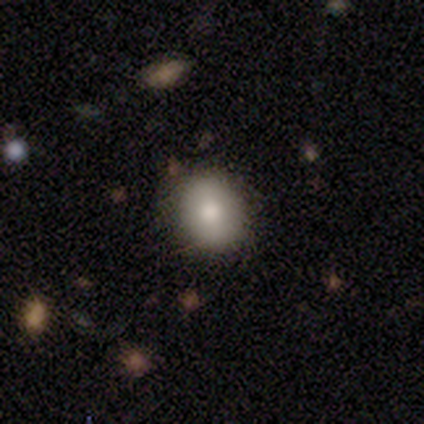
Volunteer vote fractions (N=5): A smooth galaxy with no disk features (60%) that is round (67%). Merging: none (100%).